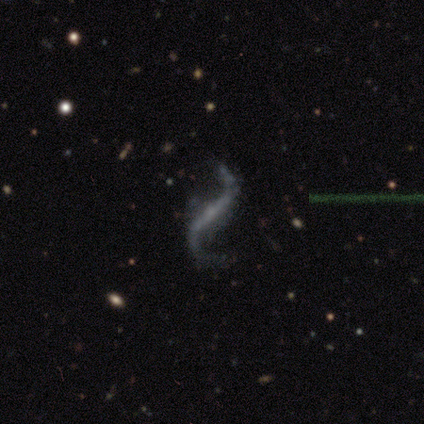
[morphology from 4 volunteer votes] This is clearly a featured or disk galaxy (100%). It is clearly not viewed edge-on (100%). Bar: possibly strong (50%). Spiral arm pattern: clearly yes (100%). Spiral arm count: clearly 2 (100%). Spiral winding: clearly loose (100%). Central bulge: likely none (75%). Merging: clearly none (100%).